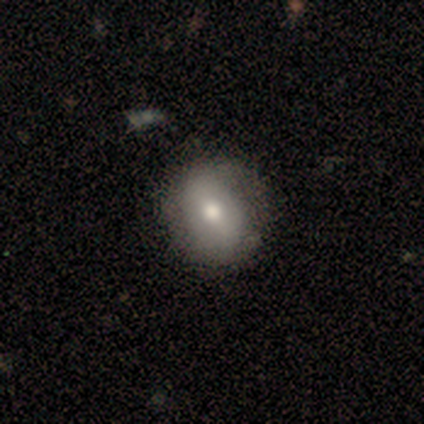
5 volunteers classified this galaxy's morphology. Smooth or featured? 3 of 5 (60%) said featured or disk. Edge-on disk? 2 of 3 (67%) said no. Bar? 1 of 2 (50%, tied with no) said strong. Spiral arms? 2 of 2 (100%) said yes. Spiral winding? 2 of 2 (100%) said tight. Spiral arm count? 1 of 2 (50%, tied with 2) said 1. Bulge size? 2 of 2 (100%) said moderate. Merging? 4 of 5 (80%) said none.